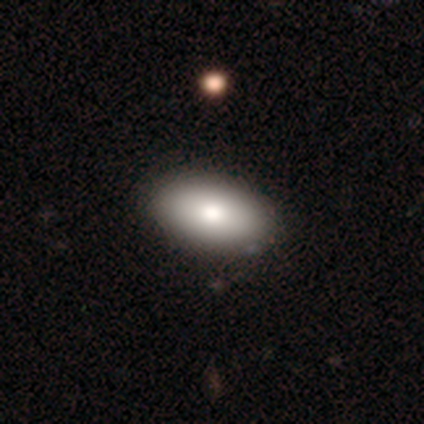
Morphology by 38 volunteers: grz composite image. It shows a smooth galaxy with no disk features (84%) that is in between round and cigar-shaped (91%). Merging: none (57%).